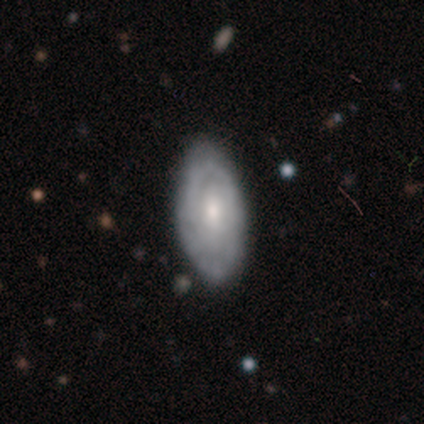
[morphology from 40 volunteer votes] Smooth or featured? featured or disk (55%)
Edge-on disk? no (100%)
Bar? no (64%)
Spiral arms? yes (64%)
Spiral winding? tight (71%)
Spiral arm count? can't tell (57%)
Bulge size? moderate (59%)
Merging? none (91%)